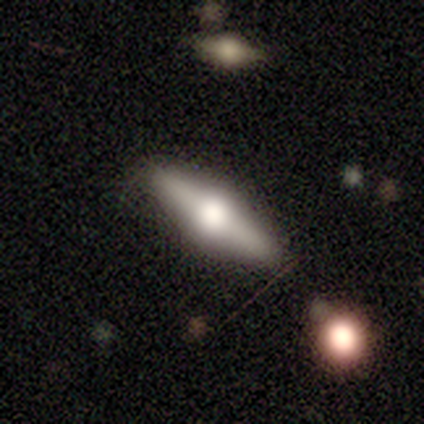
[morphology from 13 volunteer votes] A featured or disk galaxy (77%) viewed edge-on (100%) with a rounded central bulge (100%). Merging: none (92%).